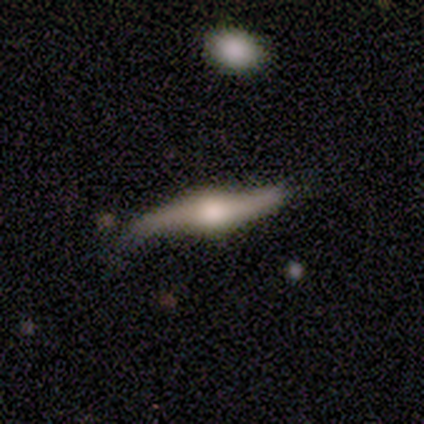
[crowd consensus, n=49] Volunteers were most divided on "merging": none: 53%, minor disturbance: 28%, major disturbance: 11%, merger: 9%. More confident: edge-on bulge — rounded (89%); smooth or featured — featured or disk (86%); edge-on disk — yes (64%).